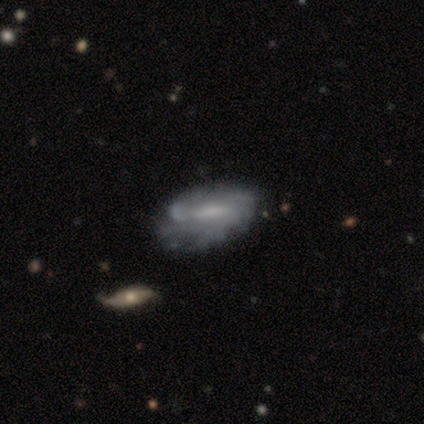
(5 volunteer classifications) Overall: featured or disk (80%). Edge-on disk: no (100%). Bar: weak (75%). Spiral arms: yes (75%). Spiral arm count: can't tell (67%; 2 33%). Spiral winding: tight (67%; medium 33%). Bulge size: moderate (50%, tied with small). Merging: minor disturbance (80%).